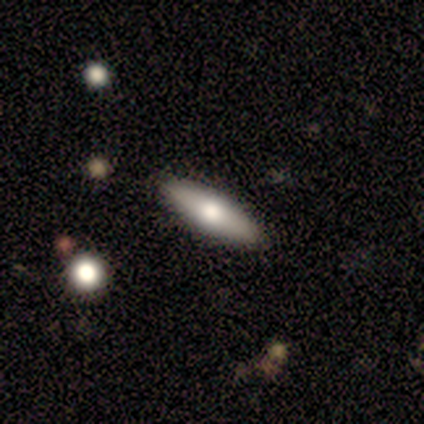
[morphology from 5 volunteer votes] smooth_or_featured: smooth (p=0.60) [alt: featured or disk p=0.40]
how_rounded: cigar-shaped (p=1.00)
merging: none (p=0.80) [alt: minor disturbance p=0.20]